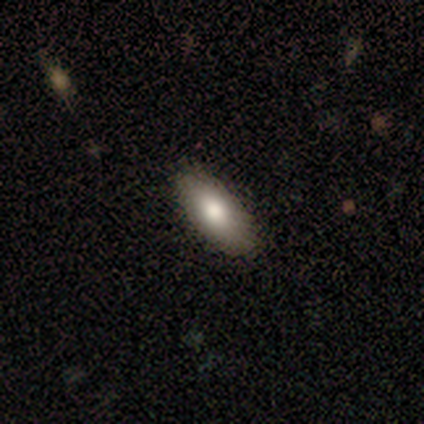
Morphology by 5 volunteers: type=smooth (80%); roundness=in between (75%); merging=none (75%).